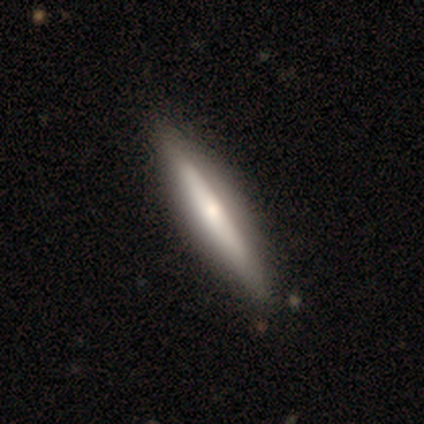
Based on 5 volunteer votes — smooth-or-featured: smooth: 60% | featured or disk: 40% | star or artifact: 0%
  how-rounded: cigar-shaped: 67% | in between: 33% | round: 0%
  merging: none: 80% | minor disturbance: 20% | major disturbance: 0% | merger: 0%